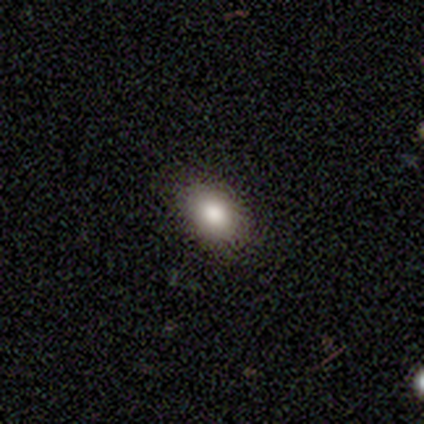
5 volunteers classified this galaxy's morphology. Smooth or featured?
  - smooth: 80% *
  - star or artifact: 20%
  - featured or disk: 0%
How rounded?
  - in between: 100% *
  - round: 0%
  - cigar-shaped: 0%
Merging?
  - none: 100% *
  - minor disturbance: 0%
  - major disturbance: 0%
  - merger: 0%